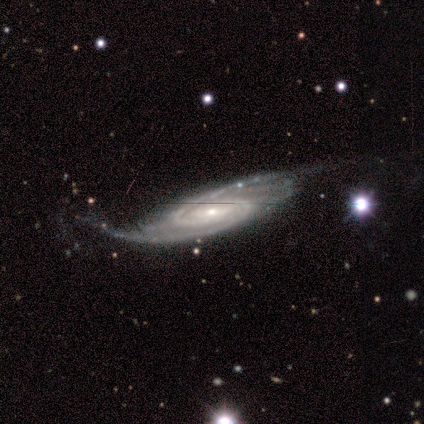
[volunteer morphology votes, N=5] smooth-or-featured: featured or disk: 80% | star or artifact: 20% | smooth: 0%
  disk-edge-on: no: 100% | yes: 0%
    bar: no: 75% | strong: 25% | weak: 0%
    has-spiral-arms: yes: 100% | no: 0%
      spiral-winding: tight: 75% | medium: 25% | loose: 0%
      spiral-arm-count: 2: 75% | more than 4: 25% | 1: 0% | 3: 0% | 4: 0% | can't tell: 0%
    bulge-size: small: 100% | dominant: 0% | large: 0% | moderate: 0% | none: 0%
  merging: none: 50% (tied) | minor disturbance: 50% (tied) | major disturbance: 0% | merger: 0%